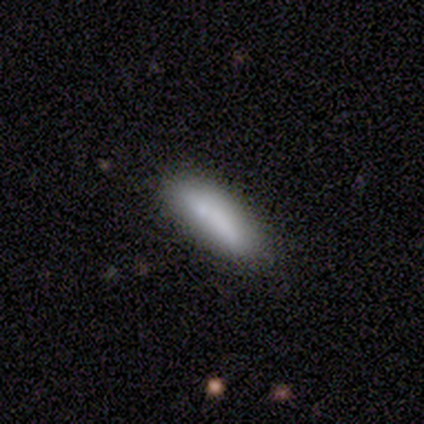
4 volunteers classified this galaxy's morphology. smooth-or-featured: smooth: 50% (tied) | featured or disk: 50% (tied) | star or artifact: 0%
  how-rounded: in between: 100% | round: 0% | cigar-shaped: 0%
  merging: none: 50% (tied) | minor disturbance: 50% (tied) | major disturbance: 0% | merger: 0%